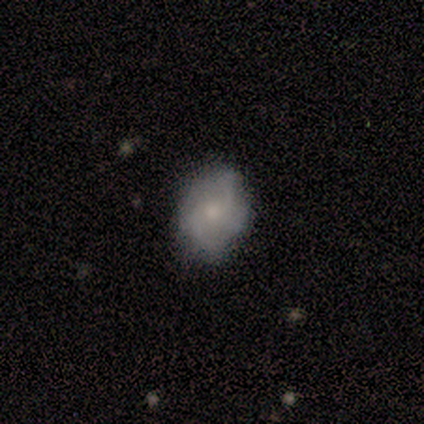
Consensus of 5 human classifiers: This appears to be a featured or disk galaxy (60%) with no bar (67%), 2 (67%) medium (67%) spiral arms (100%) and a small central bulge (100%). Merging: none (100%).